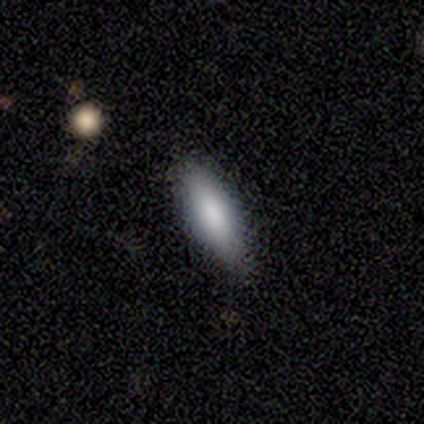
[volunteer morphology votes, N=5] This appears to be a smooth galaxy with no disk features (80%) that is in between round and cigar-shaped (75%). Merging: none (100%).